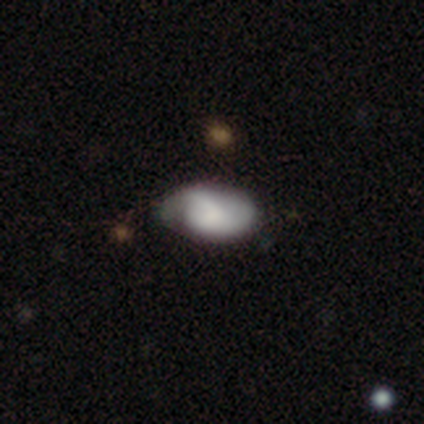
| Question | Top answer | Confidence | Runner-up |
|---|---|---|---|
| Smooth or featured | featured or disk | 47% | smooth (45%) |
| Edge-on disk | no | 100% | — |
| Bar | no | 61% | weak (28%) |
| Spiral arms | yes | 78% | no (22%) |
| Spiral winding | medium | 57% | tight (29%) |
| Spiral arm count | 2 | 64% | can't tell (21%) |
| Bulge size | none | 44% | moderate (33%) |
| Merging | minor disturbance | 34% | none (29%) |